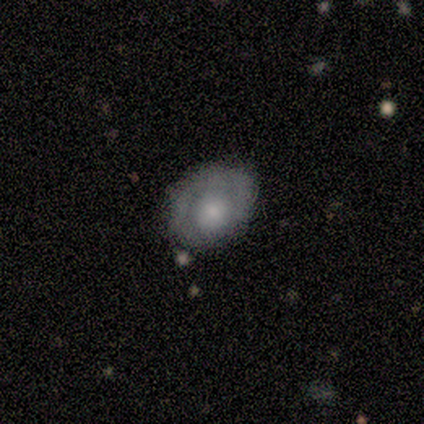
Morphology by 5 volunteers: Smooth or featured? featured or disk (60%)
Edge-on disk? no (100%)
Bar? no (100%)
Spiral arms? no (100%)
Bulge size? moderate (67%)
Merging? minor disturbance (60%)